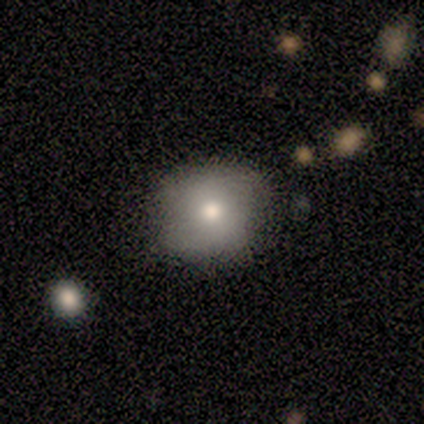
Smooth or featured? smooth (80%)
How rounded? in between (75%)
Merging? minor disturbance (80%)